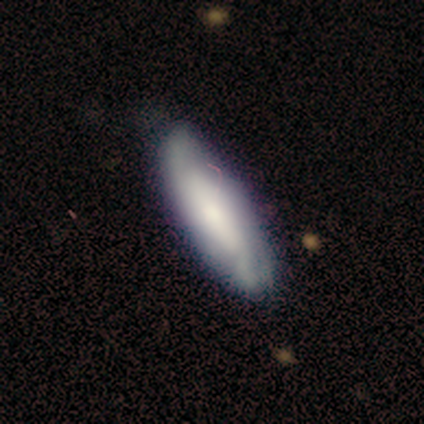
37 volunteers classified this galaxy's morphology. smooth-or-featured: smooth: 57% | featured or disk: 38% | star or artifact: 5%
  how-rounded: in between: 62% | cigar-shaped: 38% | round: 0%
  merging: none: 54% | minor disturbance: 40% | major disturbance: 6% | merger: 0%